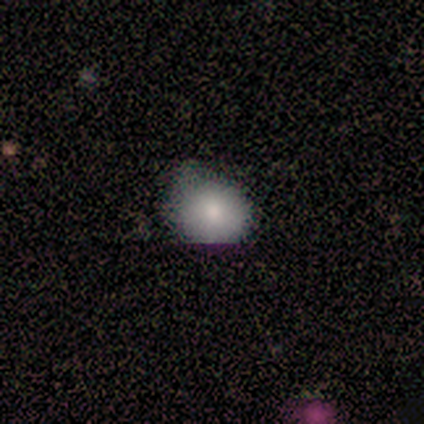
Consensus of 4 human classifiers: smooth-or-featured: smooth: 100% | featured or disk: 0% | star or artifact: 0%
  how-rounded: round: 50% (tied) | in between: 50% (tied) | cigar-shaped: 0%
  merging: none: 75% | minor disturbance: 25% | major disturbance: 0% | merger: 0%